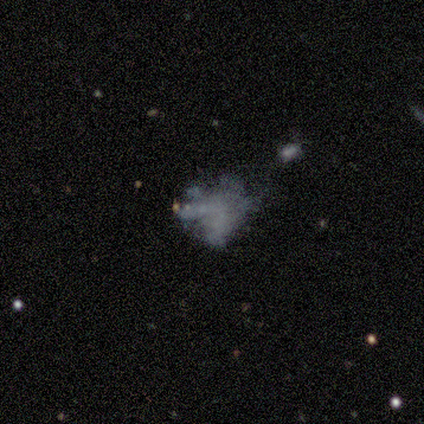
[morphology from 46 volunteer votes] Volunteers were most divided on "merging": major disturbance: 54%, none: 36%, minor disturbance: 8%, merger: 3%. More confident: edge-on disk — no (100%); spiral arms — no (97%); bar — no (94%); bulge size — none (94%); smooth or featured — featured or disk (72%).